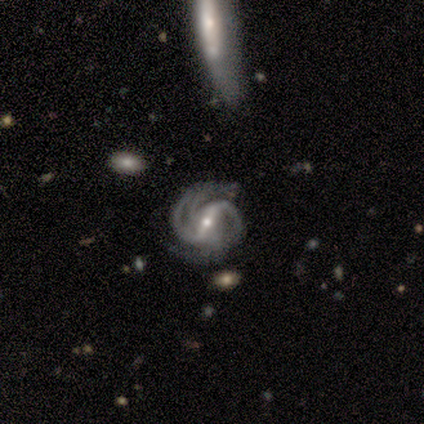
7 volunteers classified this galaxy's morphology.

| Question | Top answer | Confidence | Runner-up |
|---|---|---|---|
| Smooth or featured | featured or disk | 86% | star or artifact (14%) |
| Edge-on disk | no | 100% | — |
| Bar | strong | 50% | tied: weak (50%) |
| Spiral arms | yes | 100% | — |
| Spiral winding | tight | 67% | medium (33%) |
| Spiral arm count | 2 | 50% | 4 (33%) |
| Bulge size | small | 83% | moderate (17%) |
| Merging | none | 83% | minor disturbance (17%) |